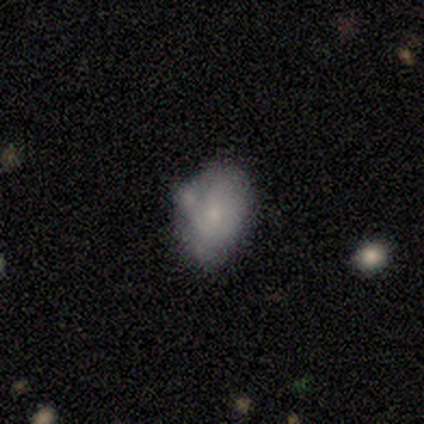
Q: Smooth or featured?
A: smooth (56%); runner-up: featured or disk (44%)
Q: How rounded?
A: in between (100%)
Q: Merging?
A: none (39%); runner-up: minor disturbance (34%)